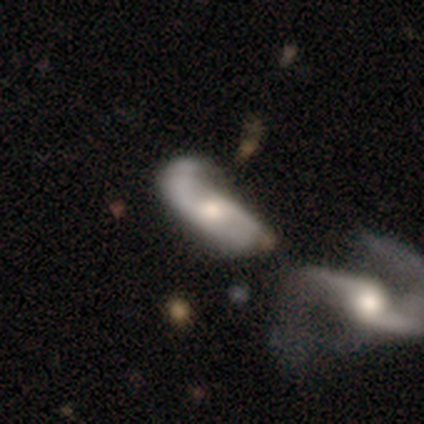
Volunteers were most divided on "bar": weak: 48%, no: 42%, strong: 10%. More confident: edge-on disk — no (94%); spiral arm count — 2 (88%); smooth or featured — featured or disk (85%); spiral arms — yes (81%); spiral winding — loose (64%); bulge size — moderate (58%); merging — merger (51%).